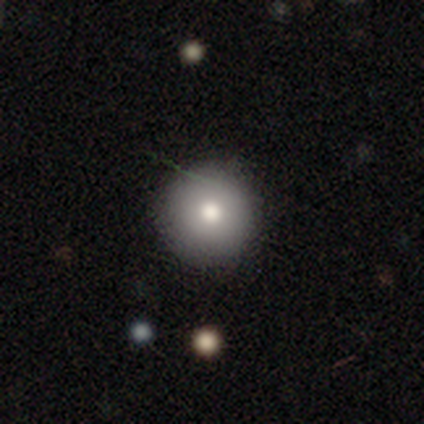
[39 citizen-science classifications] Smooth or featured? 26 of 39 (67%) said smooth. How rounded? 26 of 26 (100%) said round. Merging? 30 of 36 (83%) said none.